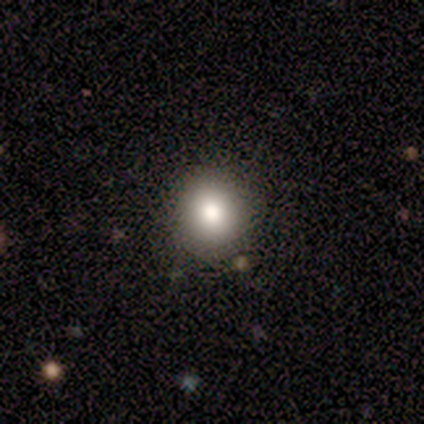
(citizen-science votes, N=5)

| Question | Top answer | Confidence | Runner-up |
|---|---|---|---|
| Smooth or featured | smooth | 60% | featured or disk (20%) |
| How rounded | round | 100% | — |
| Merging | none | 100% | — |